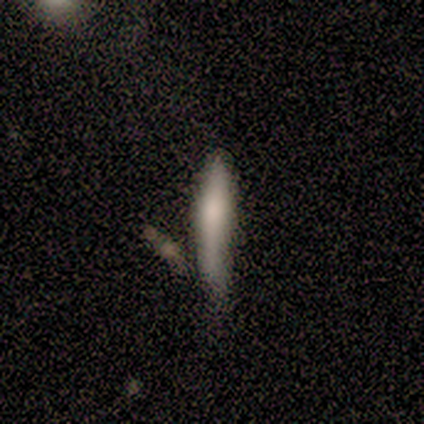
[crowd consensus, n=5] smooth 80%, star or artifact 20%, featured or disk 0%. Down the decision tree: how rounded — cigar-shaped (100%); merging — none (50%, tied with minor disturbance).